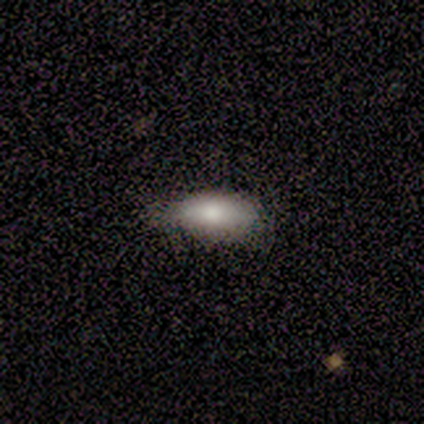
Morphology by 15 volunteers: smooth_or_featured: smooth (p=1.00)
how_rounded: in between (p=0.87) [alt: cigar-shaped p=0.13]
merging: none (p=0.67) [alt: minor disturbance p=0.20]